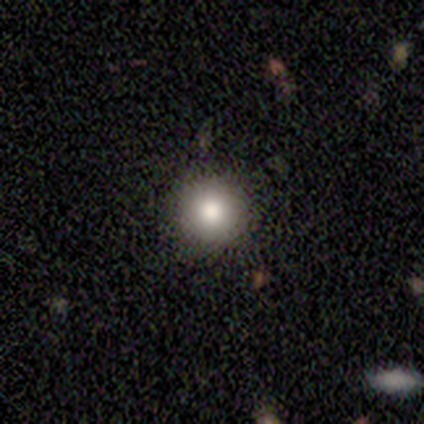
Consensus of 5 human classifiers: Overall: smooth (80%). How rounded: round (100%). Merging: none (100%).